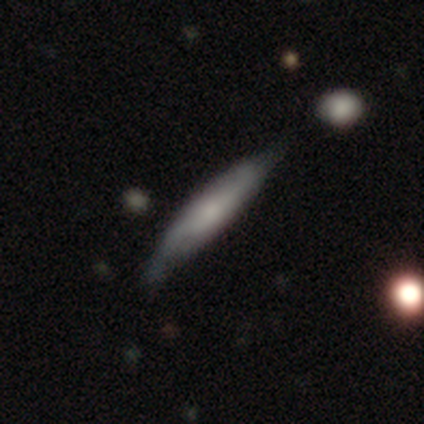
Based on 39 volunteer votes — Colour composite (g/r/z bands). It shows a smooth galaxy with no disk features (56%) that is cigar-shaped (91%). Merging: none (58%).